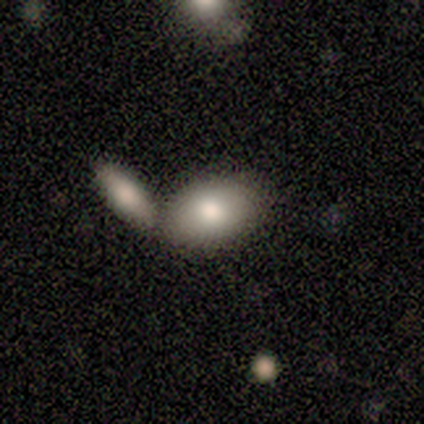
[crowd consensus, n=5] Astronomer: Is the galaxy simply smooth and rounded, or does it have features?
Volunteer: smooth — 100%.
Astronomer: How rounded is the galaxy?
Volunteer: in between — 100%.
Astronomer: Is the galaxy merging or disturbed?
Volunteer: none — 60% (runner-up: merger, 40%).